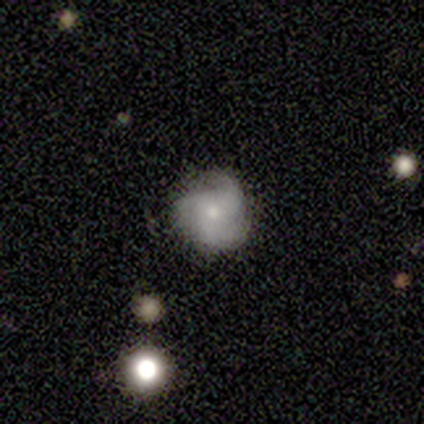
This appears to be a featured or disk galaxy (100%) with no bar (100%), 3 (100%) tight (40%, tied with loose) spiral arms (100%) and a moderate central bulge (60%). Merging: none (100%).